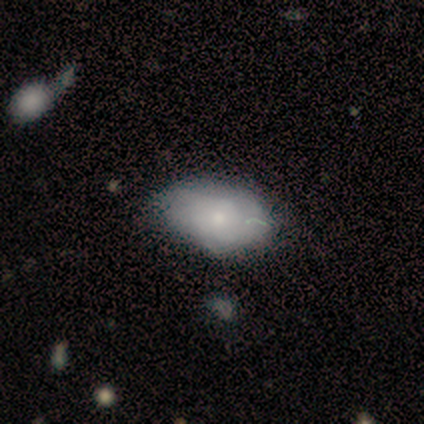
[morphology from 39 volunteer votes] Smooth or featured: smooth — 59% (featured or disk — 41%)
How rounded: in between — 100%
Merging: none — 46% (minor disturbance — 28%)